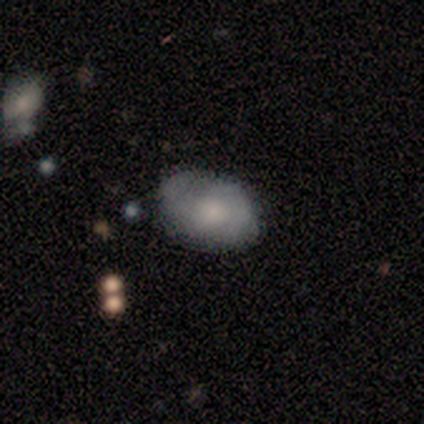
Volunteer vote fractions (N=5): smooth_or_featured: featured or disk (p=0.60) [alt: smooth p=0.40]
disk_edge_on: no (p=1.00)
bar: no (p=1.00)
has_spiral_arms: yes (p=0.67) [alt: no p=0.33]
spiral_winding: medium (p=0.50) [tied with: loose p=0.50]
spiral_arm_count: 1 (p=0.50) [tied with: 3 p=0.50]
bulge_size: small (p=0.67) [alt: moderate p=0.33]
merging: none (p=0.80) [alt: minor disturbance p=0.20]